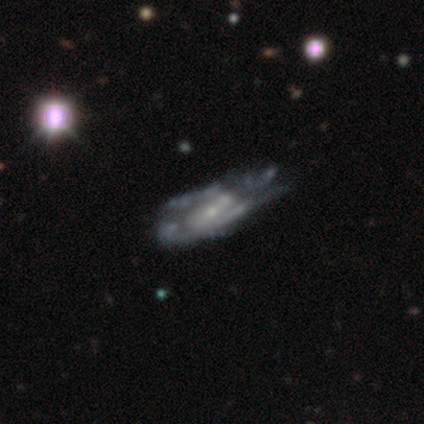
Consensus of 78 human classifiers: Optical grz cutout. It shows a featured or disk galaxy (87%) with no bar (67%), medium (62%) spiral arms (55%) and a small central bulge (66%). Merging: major disturbance (24%).